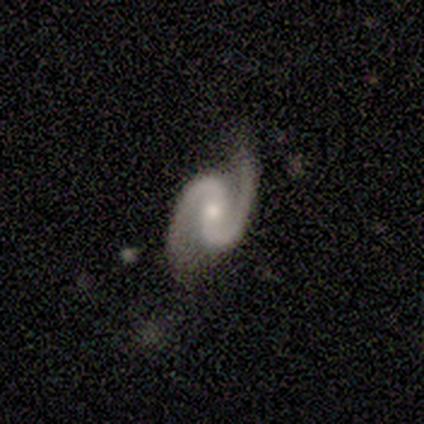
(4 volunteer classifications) This is clearly a featured or disk galaxy (100%). It is clearly not viewed edge-on (100%). Bar: possibly weak (50%, tied with no). Spiral arm pattern: clearly yes (100%). Spiral arm count: clearly 2 (100%). Spiral winding: possibly tight (50%, tied with medium). Central bulge: possibly small (50%). Merging: possibly none (50%).